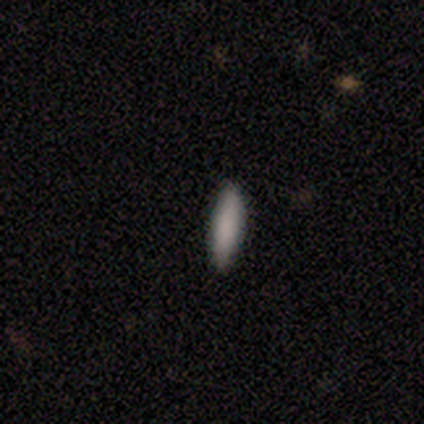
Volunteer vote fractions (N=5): Volunteers were most divided on "smooth or featured": smooth: 60%, featured or disk: 40%, star or artifact: 0%. More confident: merging — none (80%); how rounded — cigar-shaped (67%).